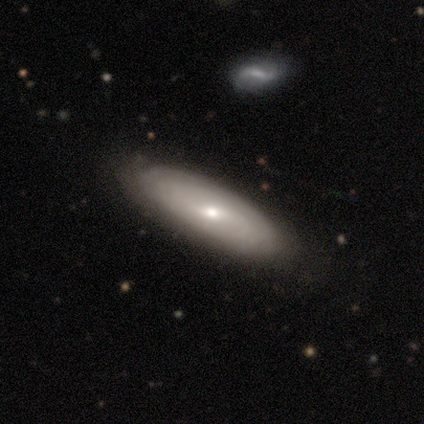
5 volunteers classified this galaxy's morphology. This appears to be a smooth galaxy with no disk features (60%) that is cigar-shaped (67%). Merging: none (80%).